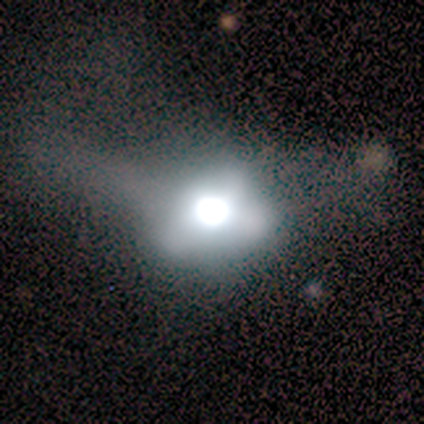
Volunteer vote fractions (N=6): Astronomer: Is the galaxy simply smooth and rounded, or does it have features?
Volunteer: featured or disk — 50% (runner-up: star or artifact, 33%).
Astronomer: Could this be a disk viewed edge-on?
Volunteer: no — 100%.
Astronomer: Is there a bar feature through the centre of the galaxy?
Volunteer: no — 100%.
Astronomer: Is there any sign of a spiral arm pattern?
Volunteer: no — 100%.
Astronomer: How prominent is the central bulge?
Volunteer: large — 100%.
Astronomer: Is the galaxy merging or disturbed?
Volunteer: major disturbance — 75%.